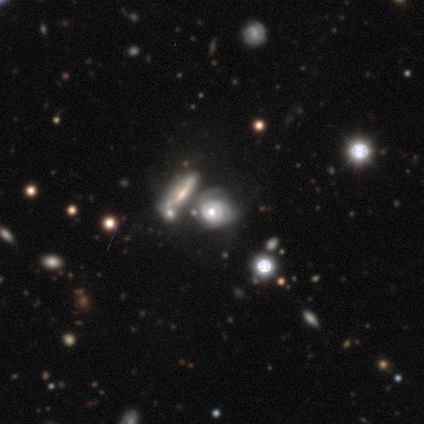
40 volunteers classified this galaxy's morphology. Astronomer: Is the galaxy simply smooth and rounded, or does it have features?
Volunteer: featured or disk — 85%.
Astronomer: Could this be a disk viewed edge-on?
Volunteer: no — 97%.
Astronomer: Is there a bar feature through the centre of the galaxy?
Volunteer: no — 91%.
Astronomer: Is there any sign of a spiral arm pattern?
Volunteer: yes — 88%.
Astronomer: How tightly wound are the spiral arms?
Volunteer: tight — 45% (runner-up: medium, 38%).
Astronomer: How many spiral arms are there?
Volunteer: can't tell — 45% (runner-up: 2, 28%).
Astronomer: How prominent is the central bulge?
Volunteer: moderate — 55% (runner-up: large, 30%).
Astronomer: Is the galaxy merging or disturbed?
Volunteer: merger — 46% (runner-up: none, 22%).